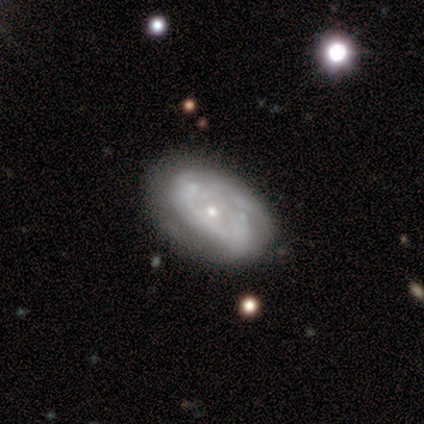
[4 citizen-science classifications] Overall: featured or disk (75%). Edge-on disk: no (100%). Bar: no (100%). Spiral arms: no (67%; yes 33%). Bulge size: small (67%; moderate 33%). Merging: none (100%).